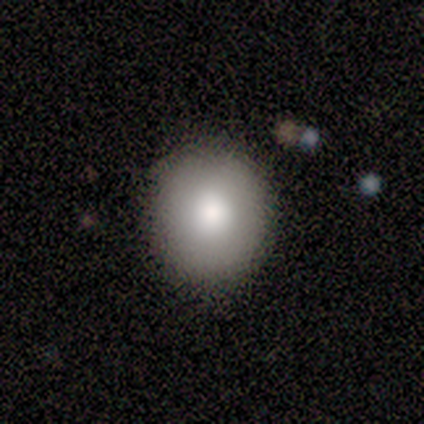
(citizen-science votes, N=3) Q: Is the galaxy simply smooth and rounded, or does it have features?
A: smooth — 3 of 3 (100%).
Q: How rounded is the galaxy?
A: round — 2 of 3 (67%).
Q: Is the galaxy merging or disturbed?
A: none — 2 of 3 (67%).